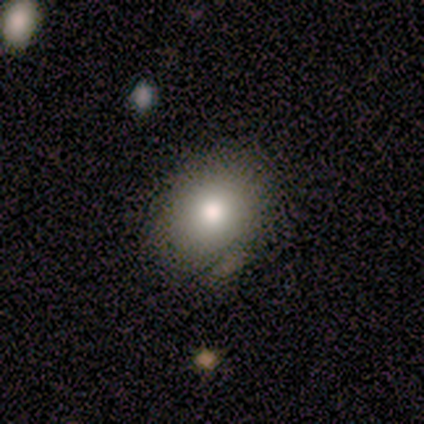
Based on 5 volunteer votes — Smooth or featured?
  - smooth: 100% *
  - featured or disk: 0%
  - star or artifact: 0%
How rounded?
  - round: 80% *
  - in between: 20%
  - cigar-shaped: 0%
Merging?
  - none: 80% *
  - minor disturbance: 20%
  - major disturbance: 0%
  - merger: 0%